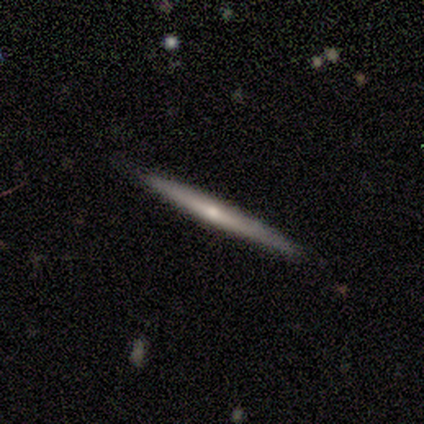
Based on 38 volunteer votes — A featured or disk galaxy (58%) viewed edge-on (91%) with no central bulge (50%, tied with rounded).

Vote fractions:
- Smooth or featured? featured or disk: 58% / smooth: 37% / star or artifact: 5%
- Edge-on disk? yes: 91% / no: 9%
- Edge-on bulge? none: 50% (tied) / rounded: 50% (tied) / boxy: 0%
- Merging? none: 83% / minor disturbance: 11% / merger: 6% / major disturbance: 0%